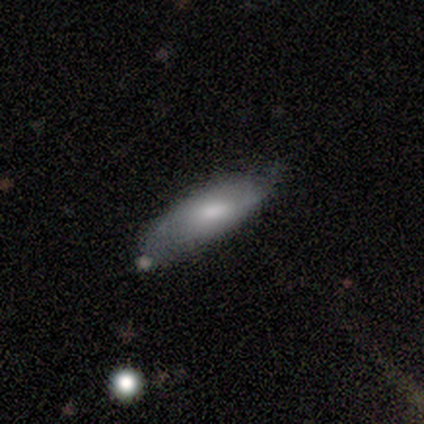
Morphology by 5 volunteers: Smooth or featured?
  - smooth: 80% *
  - star or artifact: 20%
  - featured or disk: 0%
How rounded?
  - in between: 100% *
  - round: 0%
  - cigar-shaped: 0%
Merging?
  - minor disturbance: 50% *
  - none: 25%
  - major disturbance: 25%
  - merger: 0%